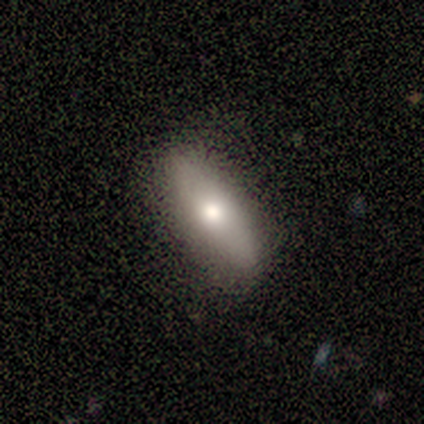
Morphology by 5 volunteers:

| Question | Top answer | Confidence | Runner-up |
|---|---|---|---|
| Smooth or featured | featured or disk | 60% | smooth (40%) |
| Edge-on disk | yes | 67% | no (33%) |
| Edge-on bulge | rounded | 100% | — |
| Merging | none | 100% | — |